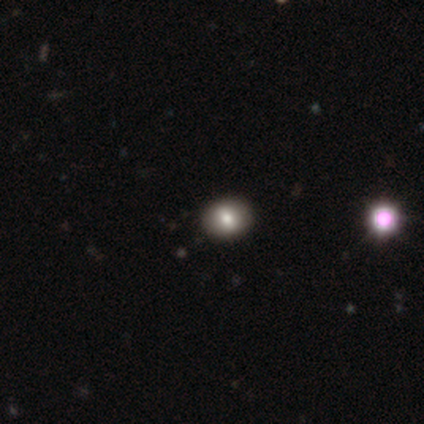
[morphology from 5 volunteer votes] smooth 80%, featured or disk 20%, star or artifact 0%. Down the decision tree: how rounded — round (75%); merging — none (80%).